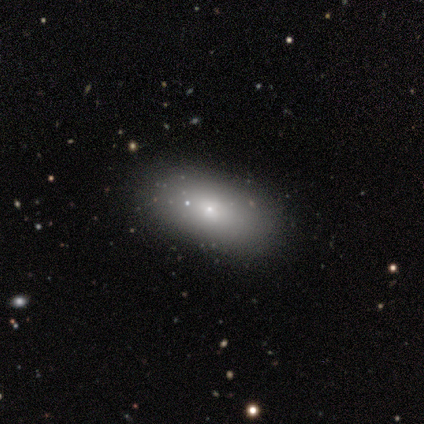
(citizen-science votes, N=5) Smooth or featured? 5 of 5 (100%) said smooth. How rounded? 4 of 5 (80%) said in between. Merging? 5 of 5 (100%) said none.